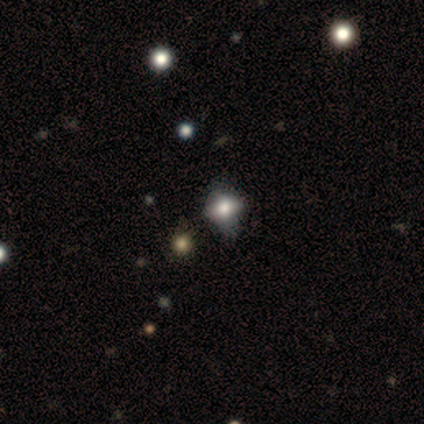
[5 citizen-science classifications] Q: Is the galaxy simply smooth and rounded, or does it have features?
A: smooth — 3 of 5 (60%).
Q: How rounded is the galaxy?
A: in between — 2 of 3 (67%).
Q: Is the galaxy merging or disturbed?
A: none — 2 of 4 (50%, tied with minor disturbance).